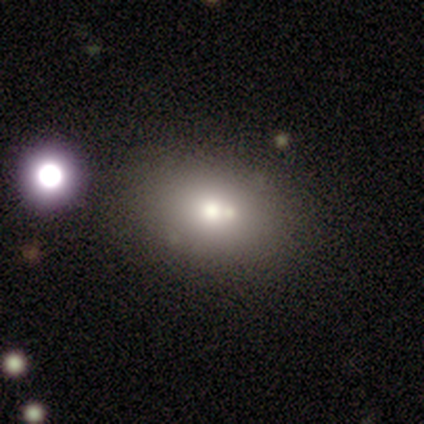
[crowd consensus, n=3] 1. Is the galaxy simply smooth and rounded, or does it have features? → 67% smooth, 33% featured or disk, 0% star or artifact.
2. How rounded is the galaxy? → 100% in between, 0% round, 0% cigar-shaped.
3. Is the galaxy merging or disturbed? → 33% none (tied), 33% major disturbance (tied), 33% merger (tied), 0% minor disturbance.